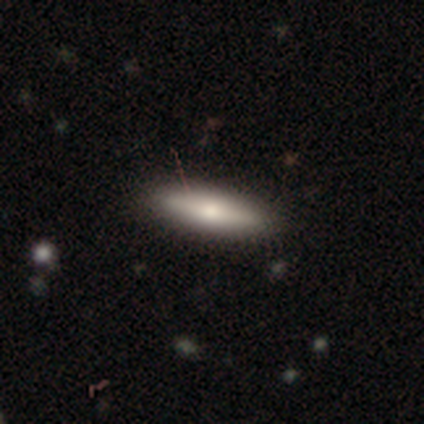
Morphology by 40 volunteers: Overall: smooth (65%; featured or disk 28%). How rounded: cigar-shaped (58%; in between 38%). Merging: none (81%).